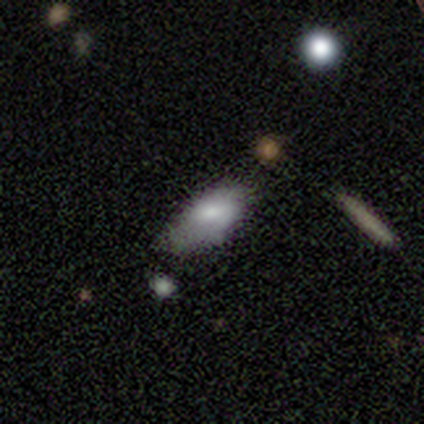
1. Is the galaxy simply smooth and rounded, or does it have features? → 75% smooth, 25% featured or disk, 0% star or artifact.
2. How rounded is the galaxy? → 67% in between, 33% cigar-shaped, 0% round.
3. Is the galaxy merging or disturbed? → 75% none, 25% major disturbance, 0% minor disturbance, 0% merger.